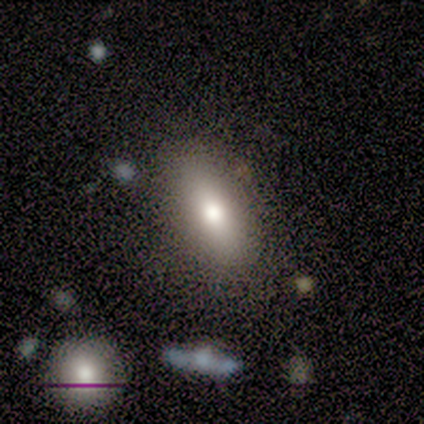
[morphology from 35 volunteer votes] smooth-or-featured: smooth: 74% | star or artifact: 17% | featured or disk: 9%
  how-rounded: in between: 81% | cigar-shaped: 12% | round: 8%
  merging: none: 83% | minor disturbance: 7% | major disturbance: 7% | merger: 3%